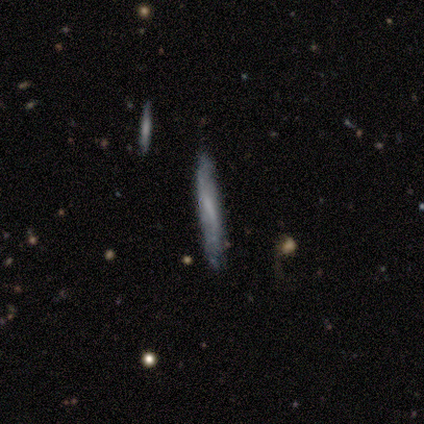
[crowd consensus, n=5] A featured or disk galaxy (80%) viewed edge-on (50%, tied with no) with no central bulge (100%). Merging: none (100%).